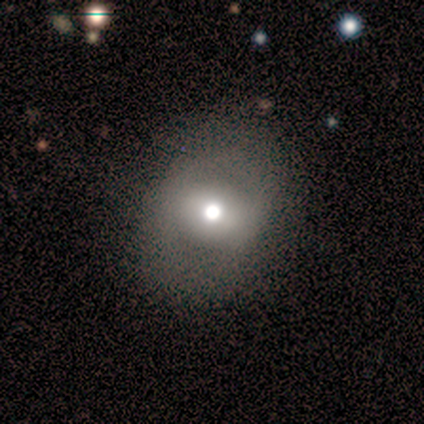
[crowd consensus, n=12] smooth_or_featured: smooth (p=0.75) [alt: featured or disk p=0.25]
how_rounded: round (p=0.78) [alt: in between p=0.22]
merging: none (p=0.92) [alt: major disturbance p=0.08]